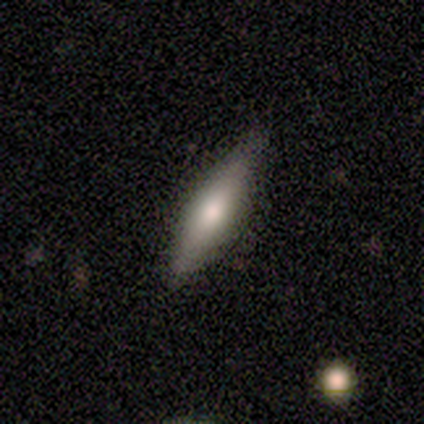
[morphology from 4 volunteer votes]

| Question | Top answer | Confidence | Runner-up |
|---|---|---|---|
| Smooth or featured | smooth | 75% | featured or disk (25%) |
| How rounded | cigar-shaped | 100% | — |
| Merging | none | 100% | — |